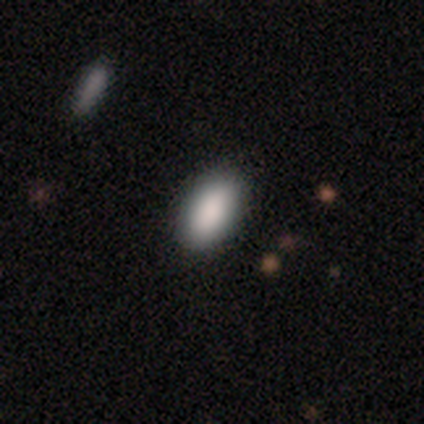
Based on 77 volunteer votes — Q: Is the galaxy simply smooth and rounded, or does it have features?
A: smooth — 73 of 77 (95%).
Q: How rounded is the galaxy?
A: in between — 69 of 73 (95%).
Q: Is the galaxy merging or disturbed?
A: none — 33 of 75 (44%).